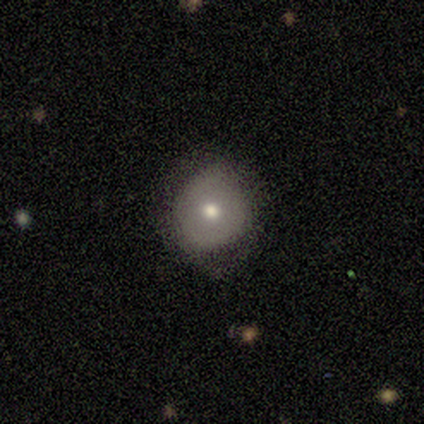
Smooth or featured? smooth (100%)
How rounded? round (100%)
Merging? none (100%)